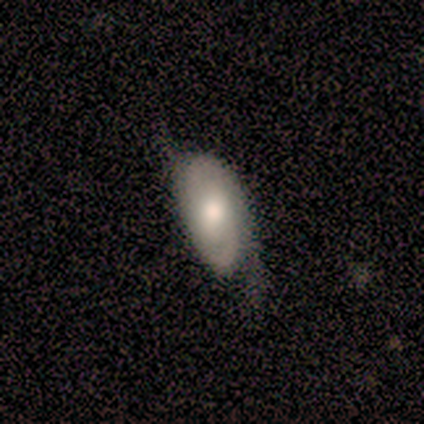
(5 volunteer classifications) smooth 40% (tied), featured or disk 40% (tied), star or artifact 20%. Down the decision tree: how rounded — in between (100%); merging — minor disturbance (75%).